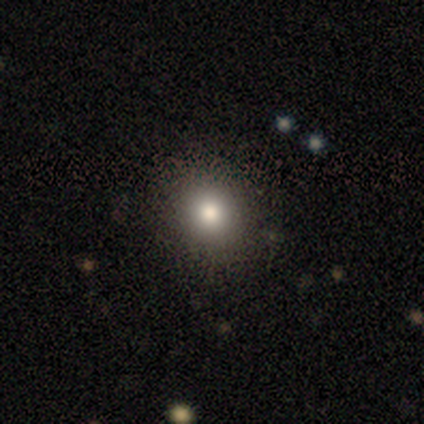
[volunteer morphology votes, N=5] This appears to be a smooth galaxy with no disk features (60%) that is round (100%). Merging: none (75%).